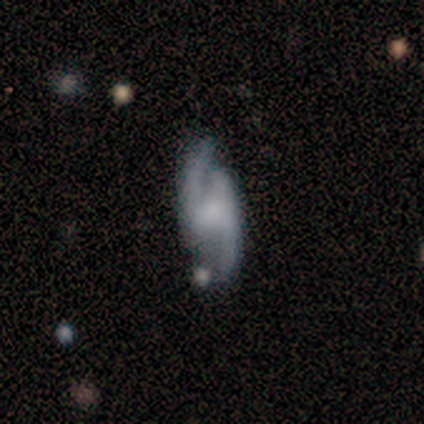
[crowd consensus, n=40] A featured or disk galaxy (90%) with no bar (50%), 2 (100%) medium (43%) spiral arms (88%) and no central bulge (56%). Merging: none (62%).